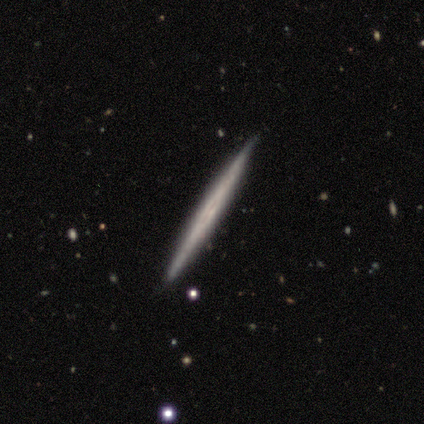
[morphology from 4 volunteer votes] smooth-or-featured: smooth: 75% | star or artifact: 25% | featured or disk: 0%
  how-rounded: cigar-shaped: 100% | round: 0% | in between: 0%
  merging: none: 100% | minor disturbance: 0% | major disturbance: 0% | merger: 0%